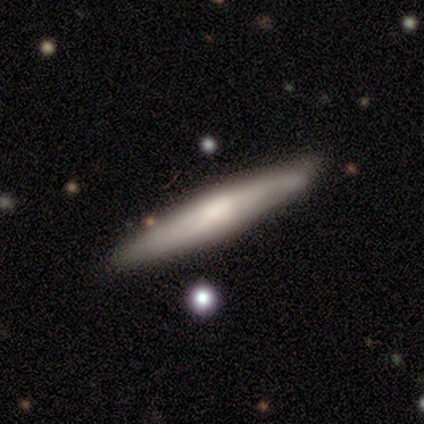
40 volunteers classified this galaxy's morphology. A smooth galaxy with no disk features (60%) that is cigar-shaped (88%). Merging: none (83%).